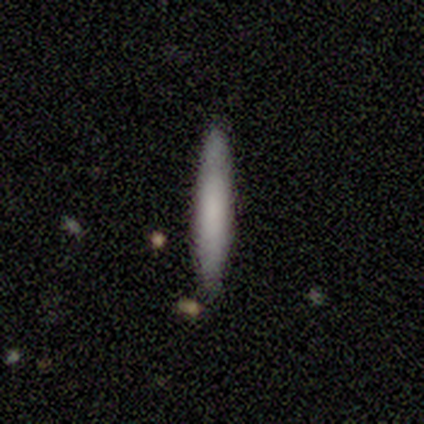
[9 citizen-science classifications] smooth_or_featured: featured or disk (p=0.56) [alt: smooth p=0.44]
disk_edge_on: yes (p=0.80) [alt: no p=0.20]
edge_on_bulge: none (p=0.75) [alt: boxy p=0.25]
merging: none (p=0.78) [alt: minor disturbance p=0.22]